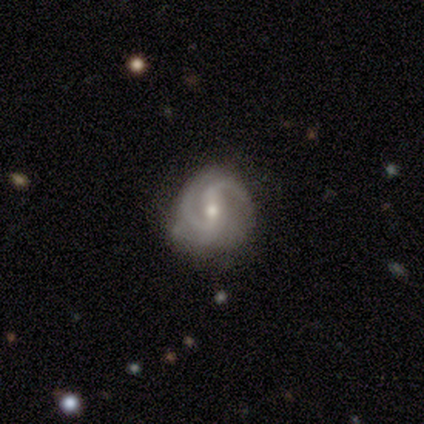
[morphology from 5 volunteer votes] Volunteers were most divided on "spiral winding": tight: 60%, medium: 40%, loose: 0%. More confident: smooth or featured — featured or disk (100%); edge-on disk — no (100%); spiral arms — yes (100%); merging — none (100%); spiral arm count — 2 (80%); bulge size — moderate (60%); bar — no (60%).